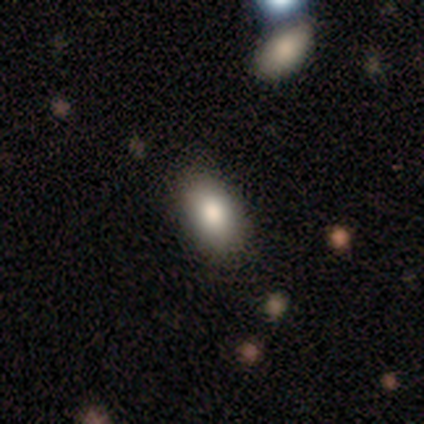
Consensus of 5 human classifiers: A smooth galaxy with no disk features (80%) that is in between round and cigar-shaped (100%). Merging: none (75%).